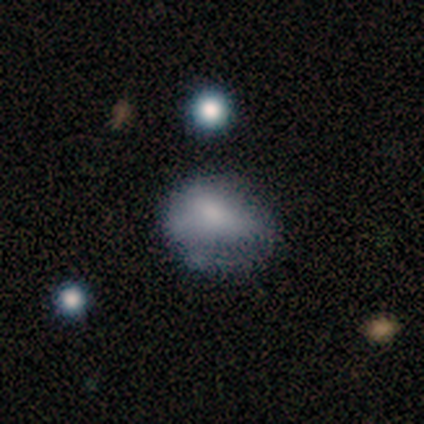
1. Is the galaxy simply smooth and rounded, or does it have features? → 44% smooth, 33% featured or disk, 23% star or artifact.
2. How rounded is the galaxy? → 53% in between, 47% round, 0% cigar-shaped.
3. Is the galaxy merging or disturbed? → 37% none, 33% minor disturbance, 30% major disturbance, 0% merger.